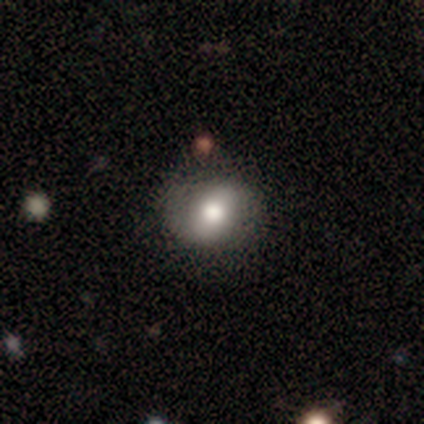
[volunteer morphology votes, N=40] type=smooth (55%); roundness=round (77%); merging=none (86%).